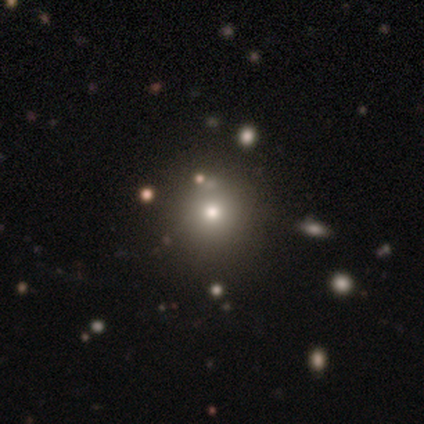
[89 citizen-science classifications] smooth 58%, star or artifact 29%, featured or disk 12%. Down the decision tree: how rounded — round (94%); merging — none (95%).